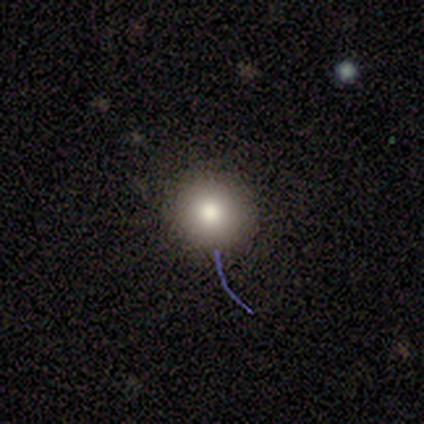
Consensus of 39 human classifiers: A smooth galaxy with no disk features (74%) that is round (97%).

Vote fractions:
- Smooth or featured? smooth: 74% / featured or disk: 13% / star or artifact: 13%
- How rounded? round: 97% / in between: 3% / cigar-shaped: 0%
- Merging? none: 79% / minor disturbance: 18% / major disturbance: 3% / merger: 0%